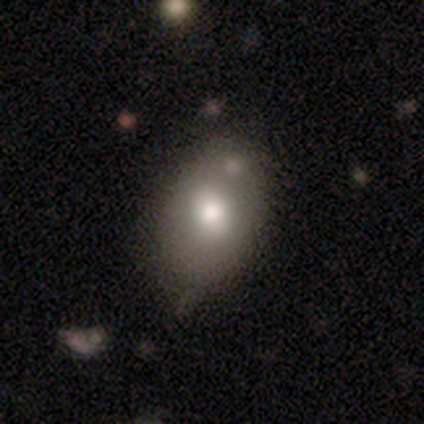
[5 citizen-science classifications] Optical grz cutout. It shows a smooth galaxy with no disk features (60%) that is in between round and cigar-shaped (67%). Merging: minor disturbance (60%).